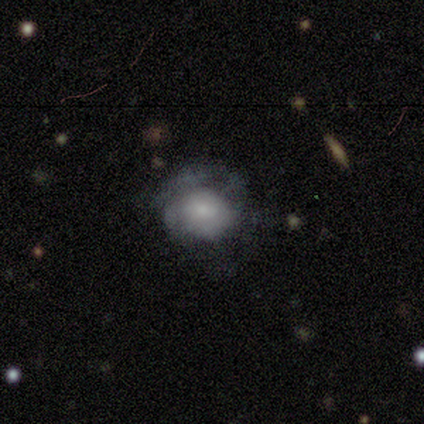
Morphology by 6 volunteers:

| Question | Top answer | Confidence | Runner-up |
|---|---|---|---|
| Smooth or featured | smooth | 50% | tied: featured or disk (50%) |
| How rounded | round | 100% | — |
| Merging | minor disturbance | 50% | none (33%) |